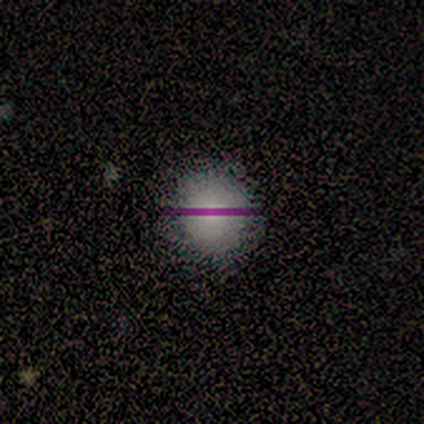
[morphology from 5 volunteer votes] Q: Smooth or featured?
A: smooth (100%)
Q: How rounded?
A: round (100%)
Q: Merging?
A: none (80%); runner-up: minor disturbance (20%)